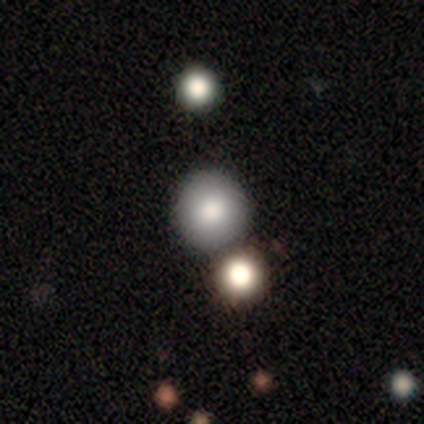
Smooth or featured? 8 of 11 (73%) said smooth. How rounded? 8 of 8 (100%) said round. Merging? 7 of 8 (88%) said none.